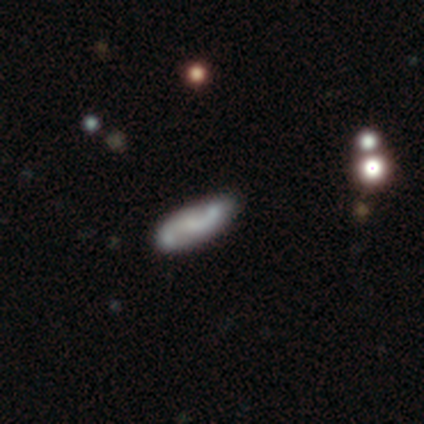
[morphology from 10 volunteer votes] This appears to be a featured or disk galaxy (90%) with no bar (67%), 2 (100%) loose (50%) spiral arms (89%) and a small central bulge (67%). Merging: none (80%).